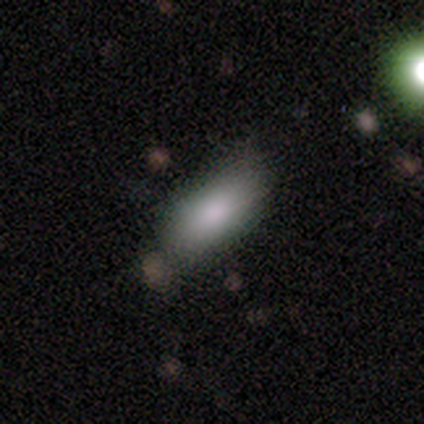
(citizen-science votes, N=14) Q: Smooth or featured?
A: smooth (71%); runner-up: featured or disk (14%)
Q: How rounded?
A: in between (90%); runner-up: cigar-shaped (10%)
Q: Merging?
A: none (75%); runner-up: minor disturbance (17%)